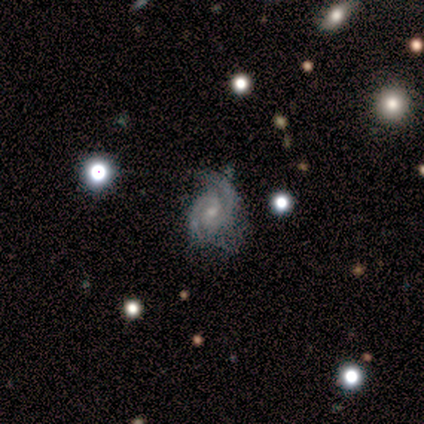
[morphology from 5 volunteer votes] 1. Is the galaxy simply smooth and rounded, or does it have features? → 100% featured or disk, 0% smooth, 0% star or artifact.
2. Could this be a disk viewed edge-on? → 100% no, 0% yes.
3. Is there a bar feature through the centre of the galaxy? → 60% weak, 40% no, 0% strong.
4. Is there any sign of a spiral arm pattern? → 100% yes, 0% no.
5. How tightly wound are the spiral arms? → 40% tight (tied), 40% medium (tied), 20% loose.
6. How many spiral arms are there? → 80% 2, 20% 1, 0% 3, 0% 4, 0% more than 4, 0% can't tell.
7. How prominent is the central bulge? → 80% small, 20% moderate, 0% dominant, 0% large, 0% none.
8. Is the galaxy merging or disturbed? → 80% minor disturbance, 20% none, 0% major disturbance, 0% merger.